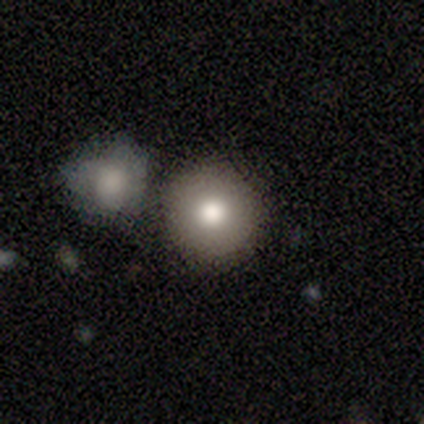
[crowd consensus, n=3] This appears to be a smooth galaxy with no disk features (67%) that is round (100%). Merging: none (50%, tied with minor disturbance).